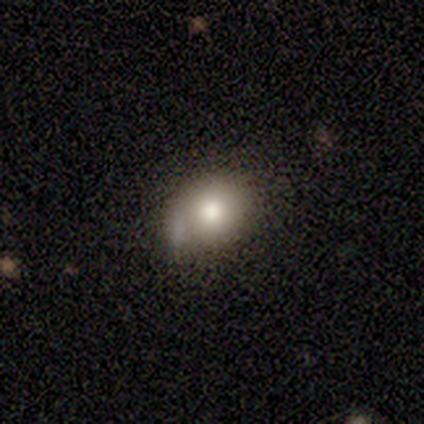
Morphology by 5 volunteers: This appears to be a featured or disk galaxy (60%) with no bar (100%), 1 (100%) loose (100%) spiral arms (50%, tied with no) and a large central bulge (50%, tied with moderate). Merging: merger (40%).